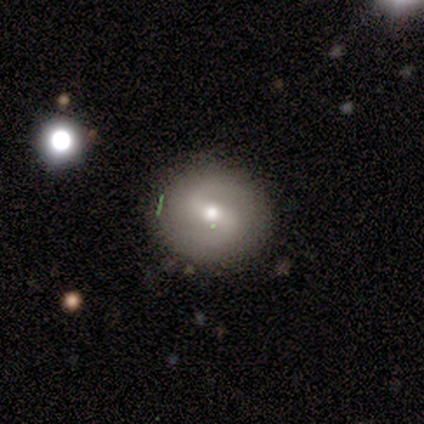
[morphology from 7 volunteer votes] Smooth or featured? smooth (57%)
How rounded? round (75%)
Merging? none (71%)